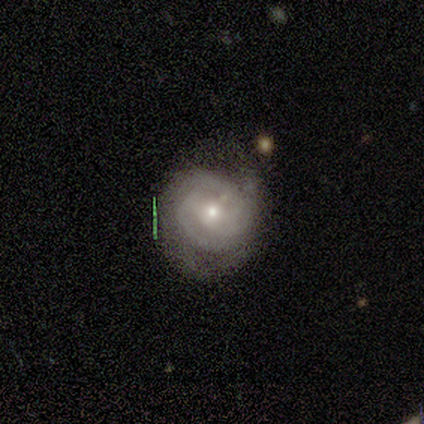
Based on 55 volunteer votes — Smooth or featured?
  - featured or disk: 78% *
  - smooth: 20%
  - star or artifact: 2%
Edge-on disk?
  - no: 100% *
  - yes: 0%
Bar?
  - weak: 42% * (tied)
  - no: 42% * (tied)
  - strong: 16%
Spiral arms?
  - yes: 93% *
  - no: 7%
Spiral winding?
  - tight: 62% *
  - medium: 35%
  - loose: 2%
Spiral arm count?
  - 2: 38% *
  - 3: 32%
  - can't tell: 25%
  - 4: 2%
  - more than 4: 2%
  - 1: 0%
Bulge size?
  - small: 58% *
  - moderate: 42%
  - dominant: 0%
  - large: 0%
  - none: 0%
Merging?
  - none: 56% *
  - minor disturbance: 26%
  - major disturbance: 17%
  - merger: 2%